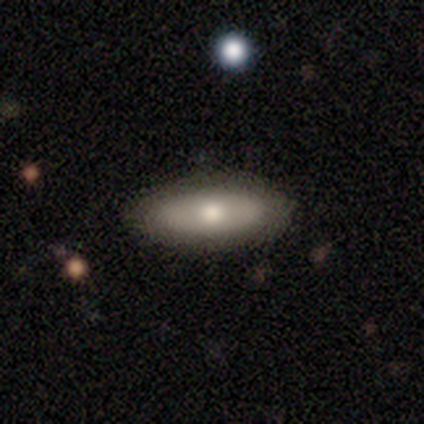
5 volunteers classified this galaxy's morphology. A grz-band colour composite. It shows a smooth galaxy with no disk features (60%) that is in between round and cigar-shaped (100%). Merging: none (80%).